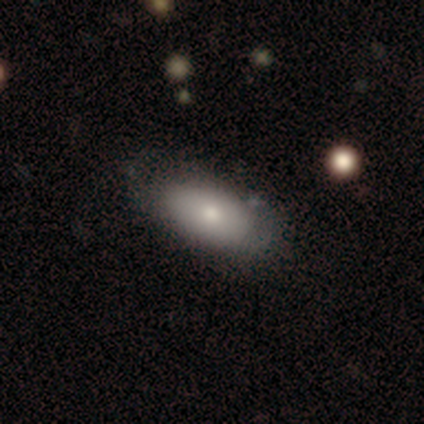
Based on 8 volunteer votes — Smooth or featured: smooth — 100%
How rounded: in between — 88% (cigar-shaped — 12%)
Merging: none — 75% (minor disturbance — 12%)